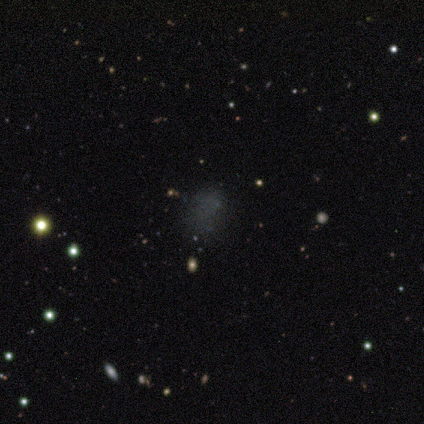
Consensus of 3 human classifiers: Q: Smooth or featured?
A: featured or disk (67%); runner-up: star or artifact (33%)
Q: Edge-on disk?
A: yes (50%); tied with: no (50%)
Q: Edge-on bulge?
A: none (100%)
Q: Merging?
A: none (100%)